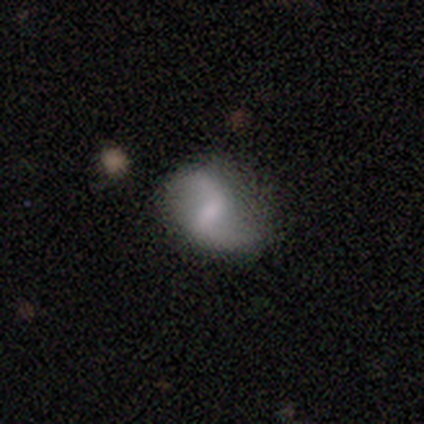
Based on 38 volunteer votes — Volunteers were most divided on "bulge size": none: 38%, moderate: 35%, small: 23%, large: 4%, dominant: 0%. Remaining: edge-on disk — no (100%); spiral arm count — 2 (100%); spiral arms — yes (92%); spiral winding — loose (92%); merging — none (71%); smooth or featured — featured or disk (68%); bar — weak (46%).